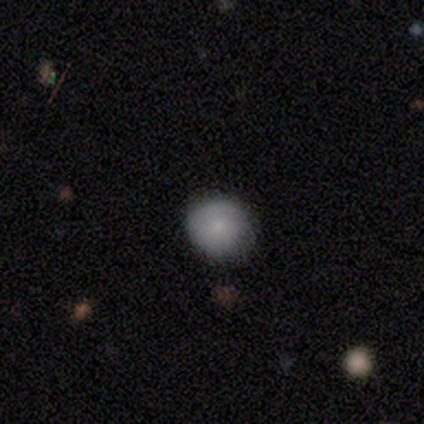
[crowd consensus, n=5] Smooth or featured? smooth (40%, tied with star or artifact)
How rounded? round (50%, tied with cigar-shaped)
Merging? none (67%)